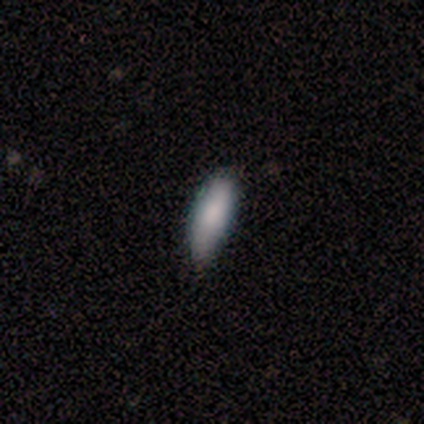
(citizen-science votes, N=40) smooth_or_featured: smooth (p=0.80) [alt: featured or disk p=0.10]
how_rounded: in between (p=0.69) [alt: cigar-shaped p=0.31]
merging: none (p=0.67) [alt: minor disturbance p=0.33]